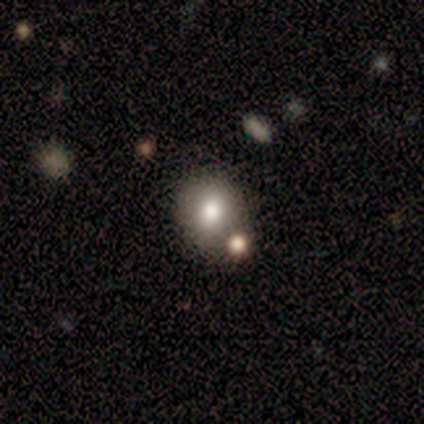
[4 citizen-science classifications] Smooth or featured: smooth — 75% (featured or disk — 25%)
How rounded: round — 100%
Merging: none — 75% (merger — 25%)